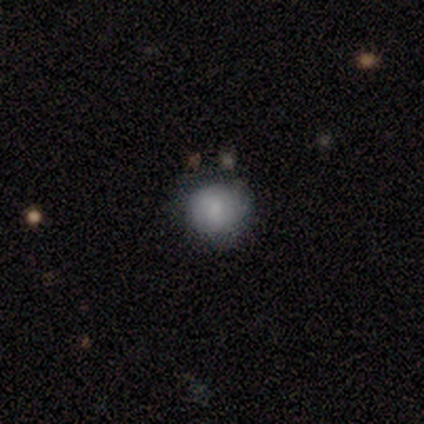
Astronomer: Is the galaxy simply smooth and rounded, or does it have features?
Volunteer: smooth — 75%.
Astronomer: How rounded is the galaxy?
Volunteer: round — 100%.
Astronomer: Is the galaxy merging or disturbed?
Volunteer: minor disturbance — 67%.